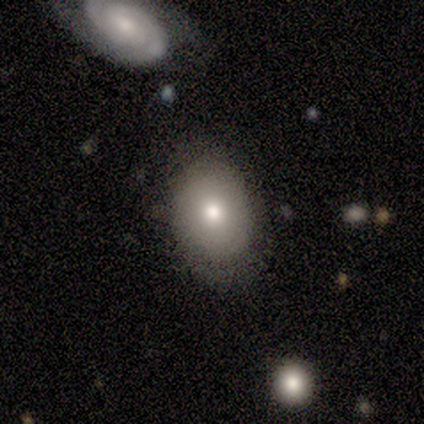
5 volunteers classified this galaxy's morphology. smooth-or-featured: smooth: 100% | featured or disk: 0% | star or artifact: 0%
  how-rounded: round: 60% | in between: 40% | cigar-shaped: 0%
  merging: none: 100% | minor disturbance: 0% | major disturbance: 0% | merger: 0%